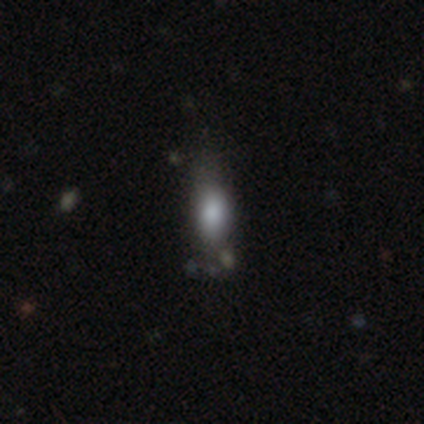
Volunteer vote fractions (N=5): A smooth galaxy with no disk features (100%) that is in between round and cigar-shaped (60%).

Vote fractions:
- Smooth or featured? smooth: 100% / featured or disk: 0% / star or artifact: 0%
- How rounded? in between: 60% / round: 20% / cigar-shaped: 20%
- Merging? minor disturbance: 60% / none: 20% / merger: 20% / major disturbance: 0%